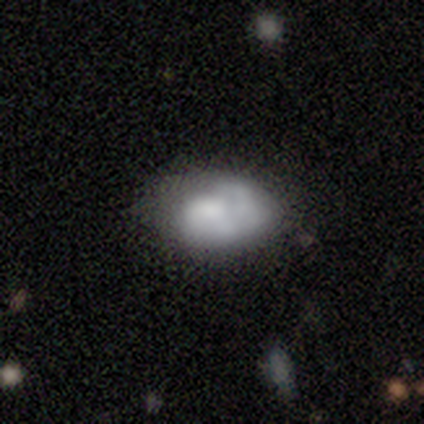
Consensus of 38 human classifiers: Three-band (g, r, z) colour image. It shows a featured or disk galaxy (58%) with no bar (77%), no spiral arms (59%) and no central bulge (36%). Merging: none (42%).